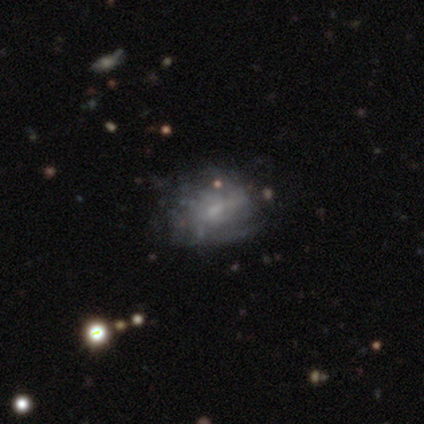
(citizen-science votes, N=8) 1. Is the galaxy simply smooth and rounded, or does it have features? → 75% featured or disk, 25% smooth, 0% star or artifact.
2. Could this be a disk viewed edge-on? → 100% no, 0% yes.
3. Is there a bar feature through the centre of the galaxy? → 83% no, 17% weak, 0% strong.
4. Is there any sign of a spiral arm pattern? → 67% no, 33% yes.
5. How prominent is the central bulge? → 67% small, 33% none, 0% dominant, 0% large, 0% moderate.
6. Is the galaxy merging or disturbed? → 62% minor disturbance, 38% none, 0% major disturbance, 0% merger.